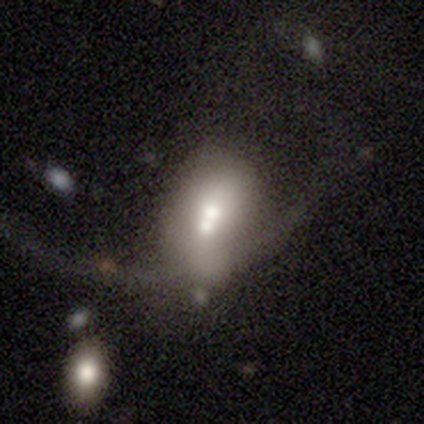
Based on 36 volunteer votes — Q: Smooth or featured?
A: smooth (64%); runner-up: featured or disk (28%)
Q: How rounded?
A: in between (74%); runner-up: round (17%)
Q: Merging?
A: merger (52%)